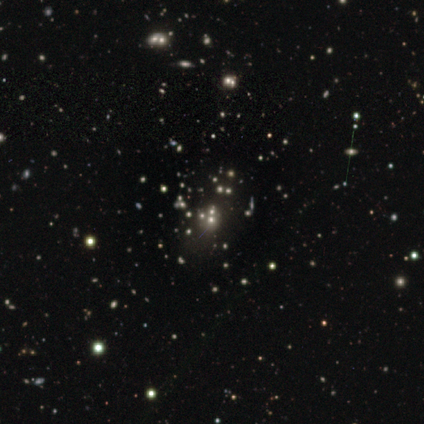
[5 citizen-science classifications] Overall: smooth (40%, tied with star or artifact). How rounded: round (50%, tied with in between). Merging: none (100%).